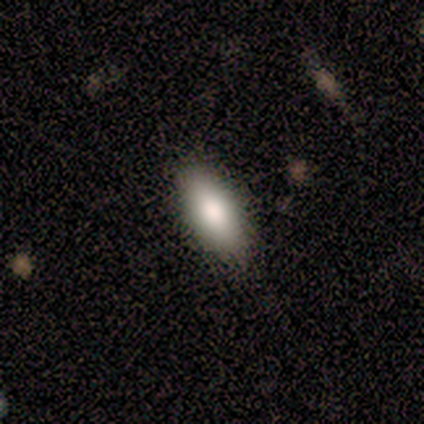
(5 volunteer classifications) A smooth galaxy with no disk features (80%) that is in between round and cigar-shaped (75%).

Vote fractions:
- Smooth or featured? smooth: 80% / featured or disk: 20% / star or artifact: 0%
- How rounded? in between: 75% / cigar-shaped: 25% / round: 0%
- Merging? none: 100% / minor disturbance: 0% / major disturbance: 0% / merger: 0%